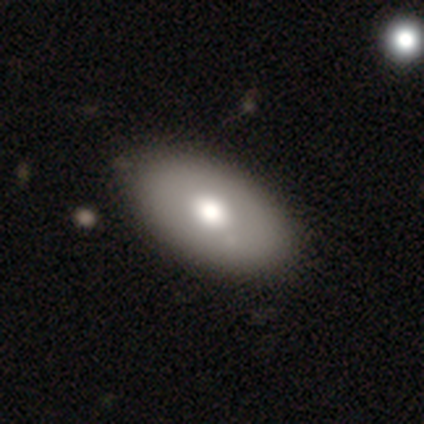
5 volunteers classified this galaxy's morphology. This appears to be a smooth galaxy with no disk features (40%, tied with featured or disk) that is in between round and cigar-shaped (100%). Merging: none (75%).